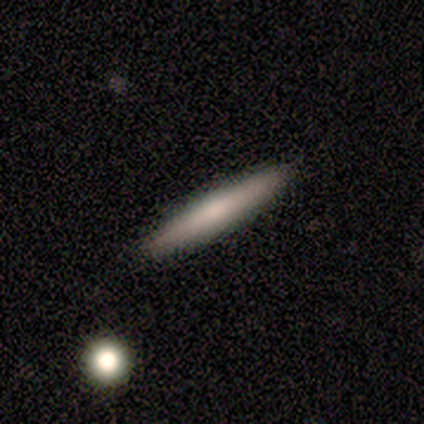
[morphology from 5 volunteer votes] smooth 60%, star or artifact 40%, featured or disk 0%. Down the decision tree: how rounded — cigar-shaped (100%); merging — none (67%).